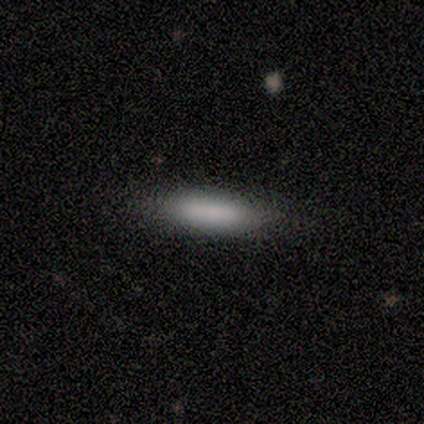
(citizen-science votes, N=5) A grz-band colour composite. It shows a smooth galaxy with no disk features (100%) that is in between round and cigar-shaped (60%). Merging: none (80%).